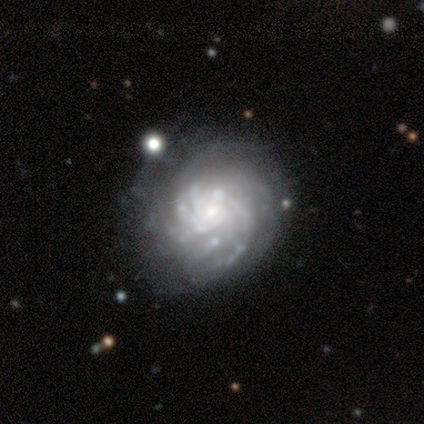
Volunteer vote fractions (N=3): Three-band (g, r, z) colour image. It shows a featured or disk galaxy (100%) with no bar (67%), 4 (33%, tied with more than 4 and can't tell) tight (67%) spiral arms (100%) and a moderate central bulge (67%). Merging: none (100%).